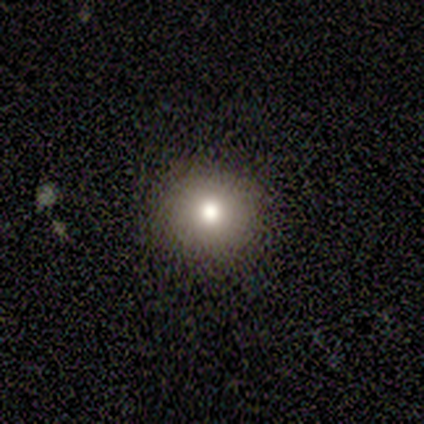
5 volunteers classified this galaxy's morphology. A smooth galaxy with no disk features (60%) that is round (100%).

Vote fractions:
- Smooth or featured? smooth: 60% / star or artifact: 40% / featured or disk: 0%
- How rounded? round: 100% / in between: 0% / cigar-shaped: 0%
- Merging? none: 100% / minor disturbance: 0% / major disturbance: 0% / merger: 0%